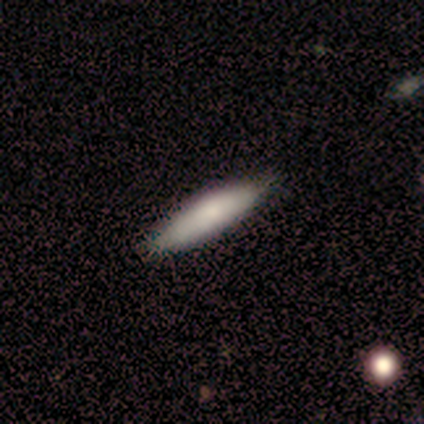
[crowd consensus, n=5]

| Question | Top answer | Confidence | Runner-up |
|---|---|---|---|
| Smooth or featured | smooth | 60% | featured or disk (20%) |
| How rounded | cigar-shaped | 100% | — |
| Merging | none | 75% | minor disturbance (25%) |